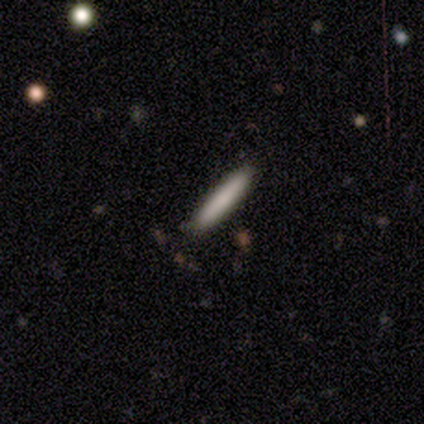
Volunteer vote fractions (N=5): Smooth or featured?
  - smooth: 100% *
  - featured or disk: 0%
  - star or artifact: 0%
How rounded?
  - cigar-shaped: 100% *
  - round: 0%
  - in between: 0%
Merging?
  - none: 80% *
  - merger: 20%
  - minor disturbance: 0%
  - major disturbance: 0%